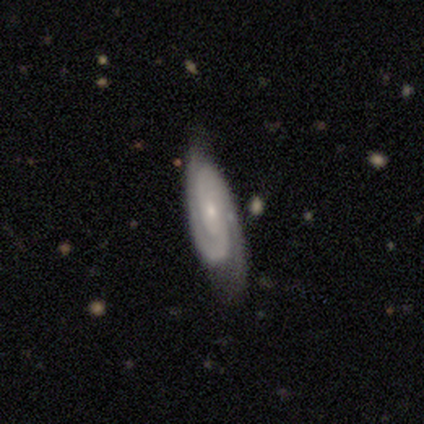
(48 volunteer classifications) Overall: featured or disk (83%). Edge-on disk: no (85%). Bar: no (59%; weak 26%). Spiral arms: yes (94%). Spiral arm count: 2 (78%). Spiral winding: tight (62%; medium 31%). Bulge size: small (74%). Merging: none (53%; minor disturbance 34%).